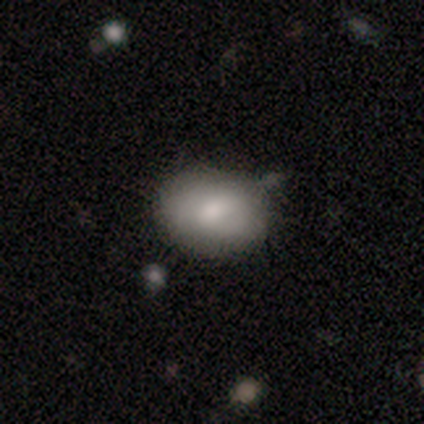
smooth-or-featured: smooth: 40% (tied) | star or artifact: 40% (tied) | featured or disk: 20%
  how-rounded: round: 50% (tied) | in between: 50% (tied) | cigar-shaped: 0%
  merging: minor disturbance: 67% | none: 33% | major disturbance: 0% | merger: 0%